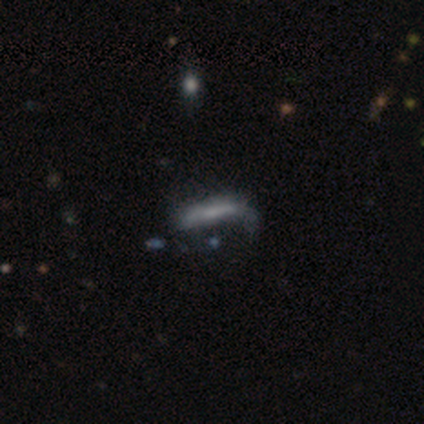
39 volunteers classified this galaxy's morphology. Smooth or featured? smooth (46%, tied with featured or disk)
How rounded? cigar-shaped (78%)
Merging? none (39%)